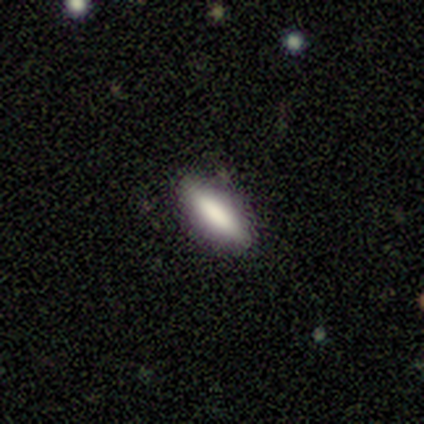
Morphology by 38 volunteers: smooth_or_featured: smooth (p=0.82) [alt: star or artifact p=0.11]
how_rounded: cigar-shaped (p=0.65) [alt: in between p=0.35]
merging: none (p=0.82) [alt: minor disturbance p=0.15]